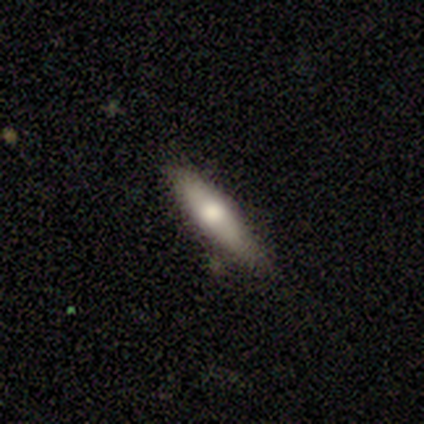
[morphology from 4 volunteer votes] Q: Smooth or featured?
A: smooth (75%); runner-up: featured or disk (25%)
Q: How rounded?
A: cigar-shaped (100%)
Q: Merging?
A: none (50%); tied with: minor disturbance (50%)